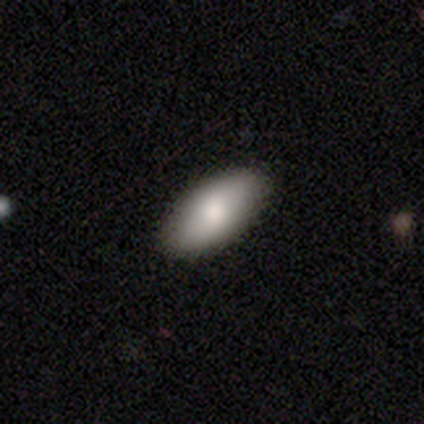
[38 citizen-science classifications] This is likely a smooth galaxy (66%). How rounded: clearly in between (96%). Merging: likely none (71%).